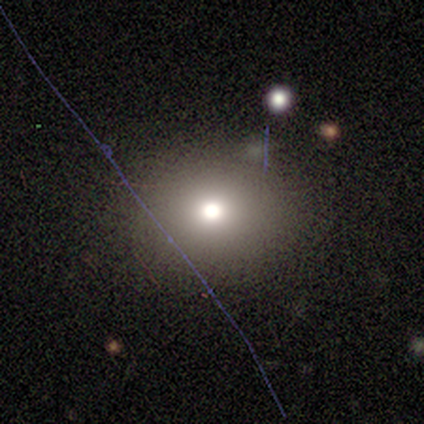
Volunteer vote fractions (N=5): Smooth or featured: smooth — 80% (star or artifact — 20%)
How rounded: round — 75% (in between — 25%)
Merging: none — 75% (minor disturbance — 25%)